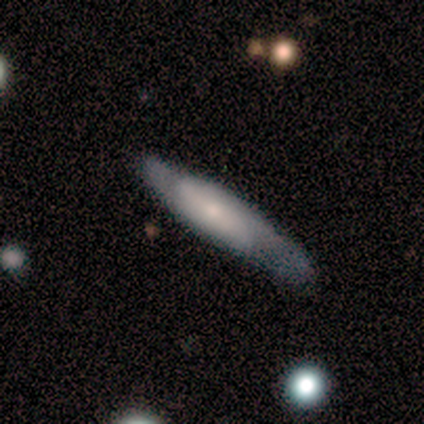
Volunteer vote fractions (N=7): Smooth or featured?
  - featured or disk: 57% *
  - smooth: 43%
  - star or artifact: 0%
Edge-on disk?
  - no: 100% *
  - yes: 0%
Bar?
  - no: 50% *
  - strong: 25%
  - weak: 25%
Spiral arms?
  - yes: 75% *
  - no: 25%
Spiral winding?
  - medium: 67% *
  - tight: 33%
  - loose: 0%
Spiral arm count?
  - 2: 67% *
  - can't tell: 33%
  - 1: 0%
  - 3: 0%
  - 4: 0%
  - more than 4: 0%
Bulge size?
  - small: 75% *
  - large: 25%
  - dominant: 0%
  - moderate: 0%
  - none: 0%
Merging?
  - none: 71% *
  - minor disturbance: 29%
  - major disturbance: 0%
  - merger: 0%